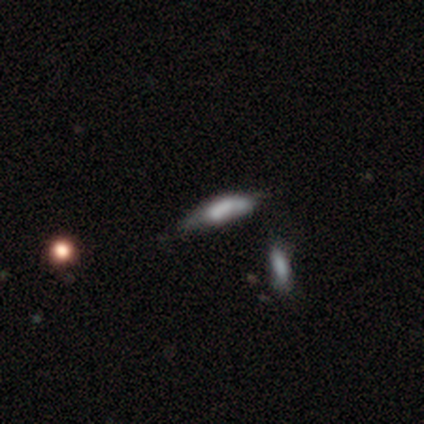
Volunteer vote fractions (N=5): Morphology: type=smooth (80%); roundness=cigar-shaped (75%); merging=minor disturbance (50%).